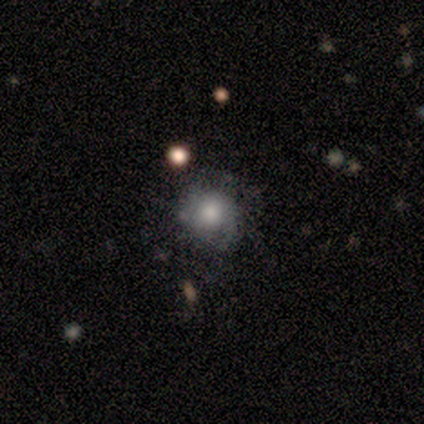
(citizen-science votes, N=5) smooth-or-featured: smooth: 80% | featured or disk: 20% | star or artifact: 0%
  how-rounded: round: 100% | in between: 0% | cigar-shaped: 0%
  merging: none: 40% (tied) | minor disturbance: 40% (tied) | major disturbance: 20% | merger: 0%